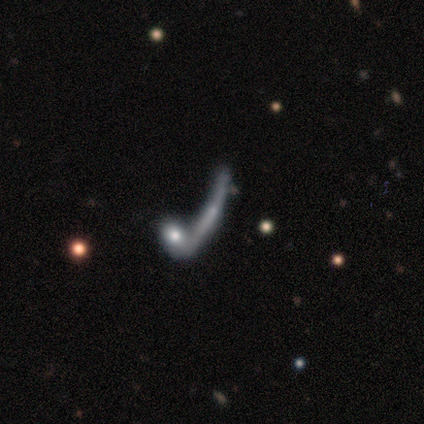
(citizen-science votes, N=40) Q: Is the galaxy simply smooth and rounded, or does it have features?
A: featured or disk — 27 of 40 (68%).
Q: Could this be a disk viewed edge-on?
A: yes — 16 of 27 (59%).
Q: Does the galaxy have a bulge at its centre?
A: rounded — 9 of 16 (56%).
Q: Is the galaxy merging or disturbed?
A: merger — 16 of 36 (44%).